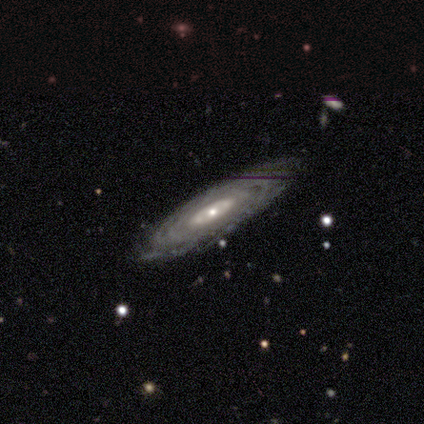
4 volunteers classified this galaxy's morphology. type=featured or disk (75%); edge-on=no (100%); bar=no (67%); spiral arms=yes (67%); winding=tight (50%, tied with loose); arm count=can't tell (100%); bulge=small (100%); merging=none (75%).